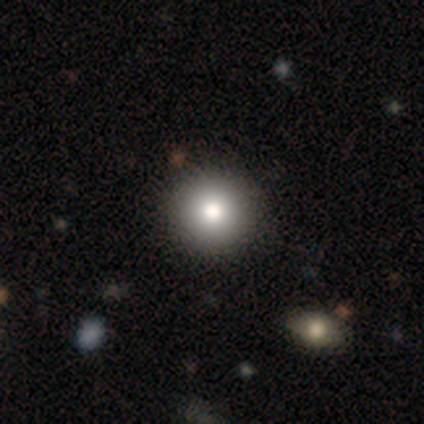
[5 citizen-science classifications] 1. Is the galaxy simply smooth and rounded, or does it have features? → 100% smooth, 0% featured or disk, 0% star or artifact.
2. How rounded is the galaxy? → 60% round, 40% in between, 0% cigar-shaped.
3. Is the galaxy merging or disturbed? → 60% none, 20% minor disturbance, 20% major disturbance, 0% merger.